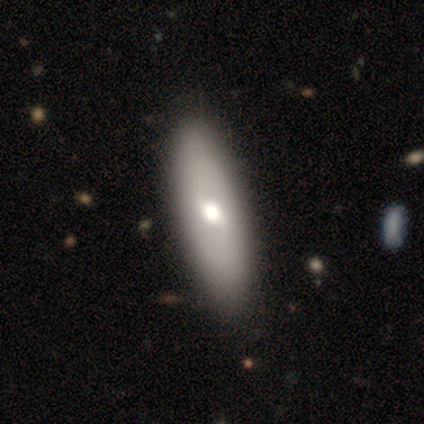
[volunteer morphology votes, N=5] featured or disk 60%, smooth 40%, star or artifact 0%. Down the decision tree: edge-on disk — no (67%); bar — no (100%); spiral arms — no (100%); bulge size — moderate (100%); merging — none (80%).